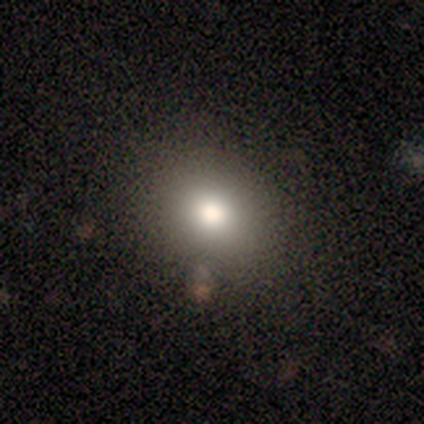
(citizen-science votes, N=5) This appears to be a smooth galaxy with no disk features (60%) that is round (67%). Merging: none (75%).